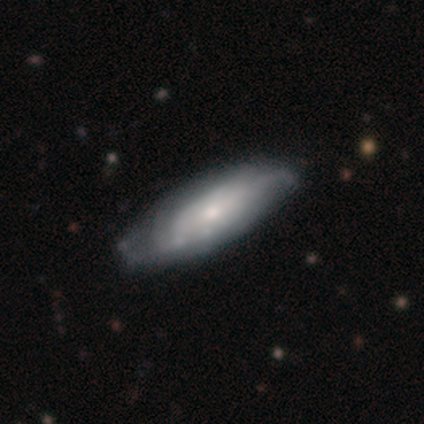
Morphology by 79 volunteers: smooth-or-featured: featured or disk: 59% | smooth: 37% | star or artifact: 4%
  disk-edge-on: no: 94% | yes: 6%
    bar: no: 89% | weak: 11% | strong: 0%
    has-spiral-arms: yes: 75% | no: 25%
      spiral-winding: tight: 48% | medium: 36% | loose: 15%
      spiral-arm-count: can't tell: 79% | 2: 9% | 3: 9% | 1: 3% | 4: 0% | more than 4: 0%
    bulge-size: small: 48% | moderate: 41% | large: 5% | none: 5% | dominant: 2%
  merging: none: 34% | minor disturbance: 14% | major disturbance: 3% | merger: 0%